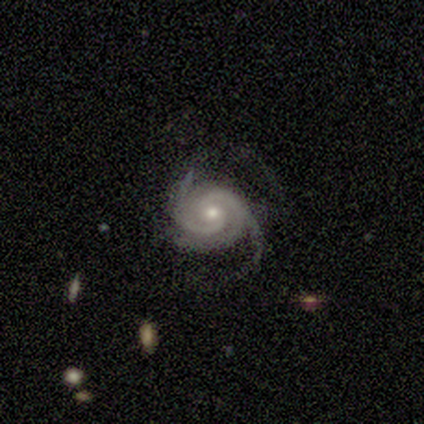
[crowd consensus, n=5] Overall: featured or disk (100%). Edge-on disk: no (100%). Bar: no (80%). Spiral arms: yes (100%). Spiral arm count: 3 (80%). Spiral winding: medium (80%). Bulge size: small (60%; moderate 40%). Merging: none (60%; minor disturbance 40%).